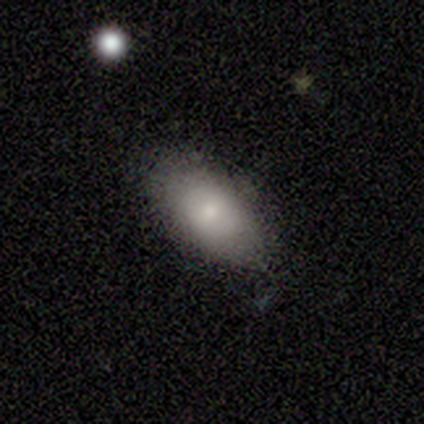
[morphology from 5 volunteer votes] smooth_or_featured: smooth (p=0.60) [alt: featured or disk p=0.20]
how_rounded: in between (p=0.67) [alt: round p=0.33]
merging: none (p=0.75) [alt: merger p=0.25]